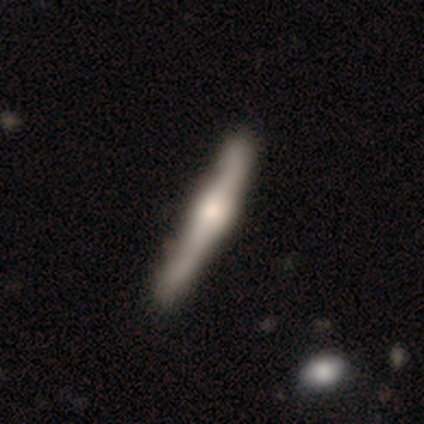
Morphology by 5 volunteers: This appears to be a featured or disk galaxy (80%) viewed edge-on (100%) with a rounded central bulge (100%). Merging: none (60%).